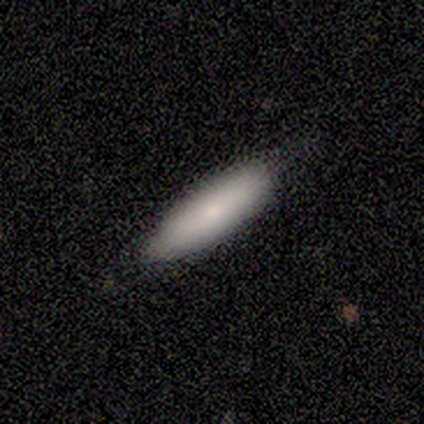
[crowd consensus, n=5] This appears to be a smooth galaxy with no disk features (100%) that is in between round and cigar-shaped (60%). Merging: none (80%).